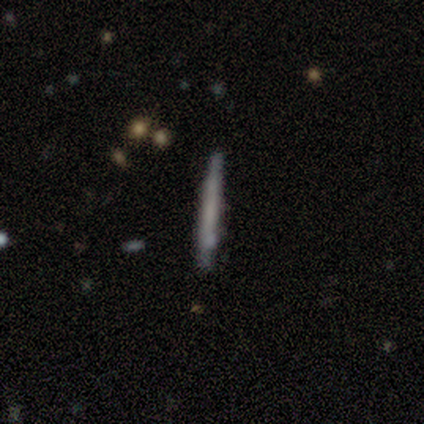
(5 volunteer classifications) This appears to be a smooth galaxy with no disk features (60%) that is cigar-shaped (100%). Merging: none (100%).